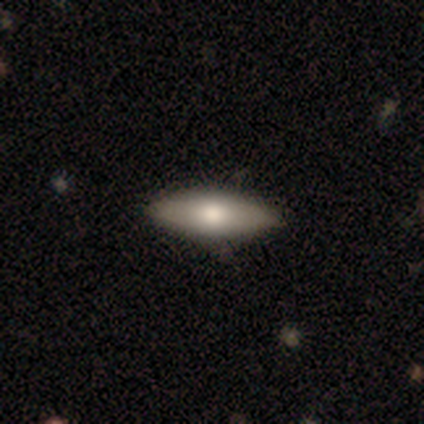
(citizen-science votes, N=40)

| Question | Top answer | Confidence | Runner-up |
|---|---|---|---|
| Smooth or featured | smooth | 68% | featured or disk (28%) |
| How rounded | in between | 78% | cigar-shaped (22%) |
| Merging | none | 95% | minor disturbance (3%) |